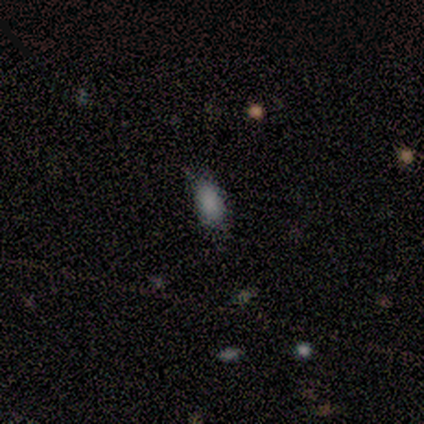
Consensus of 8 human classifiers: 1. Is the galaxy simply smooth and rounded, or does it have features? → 100% smooth, 0% featured or disk, 0% star or artifact.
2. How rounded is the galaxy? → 88% in between, 12% cigar-shaped, 0% round.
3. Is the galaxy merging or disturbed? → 88% none, 12% major disturbance, 0% minor disturbance, 0% merger.